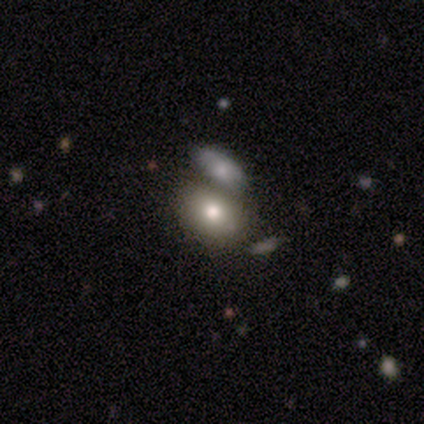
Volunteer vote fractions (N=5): Volunteers were most divided on "how rounded": in between: 75%, round: 25%, cigar-shaped: 0%. More confident: smooth or featured — smooth (80%); merging — merger (75%).